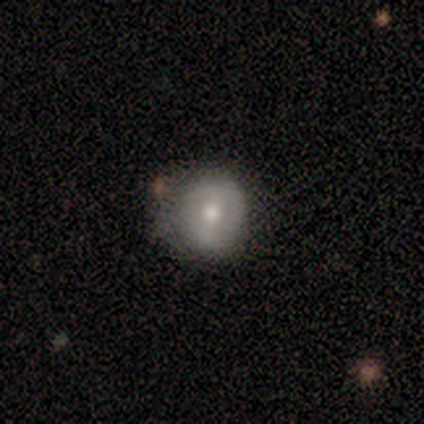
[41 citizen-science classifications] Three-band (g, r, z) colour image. It shows a smooth galaxy with no disk features (51%) that is round (90%). Merging: none (46%).